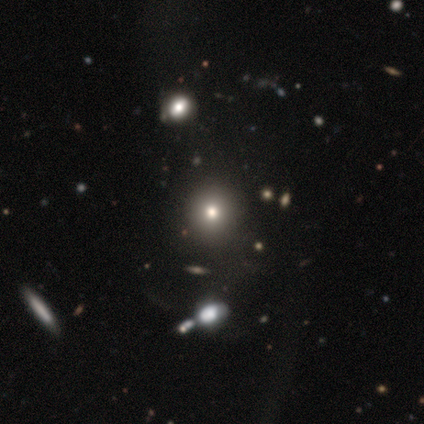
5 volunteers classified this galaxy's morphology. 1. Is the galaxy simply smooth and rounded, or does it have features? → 80% smooth, 20% featured or disk, 0% star or artifact.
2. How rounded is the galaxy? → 75% round, 25% in between, 0% cigar-shaped.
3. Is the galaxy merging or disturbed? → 80% none, 20% minor disturbance, 0% major disturbance, 0% merger.